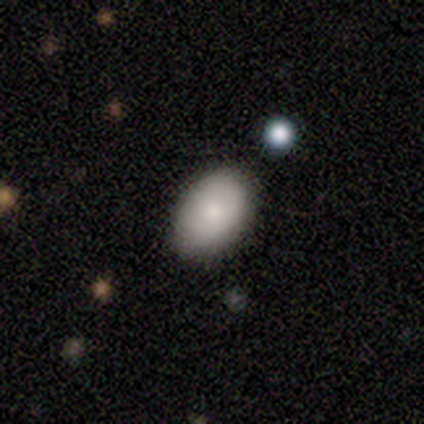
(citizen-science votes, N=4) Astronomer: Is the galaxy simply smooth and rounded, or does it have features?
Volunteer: smooth — 100%.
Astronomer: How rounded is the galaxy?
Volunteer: in between — 100%.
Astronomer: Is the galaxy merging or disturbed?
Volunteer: none — 75%.